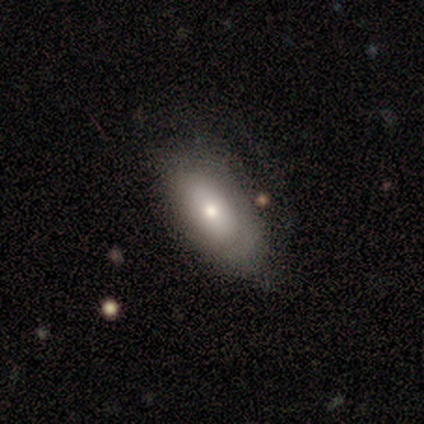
This appears to be a smooth galaxy with no disk features (55%) that is in between round and cigar-shaped (95%). Merging: none (71%).